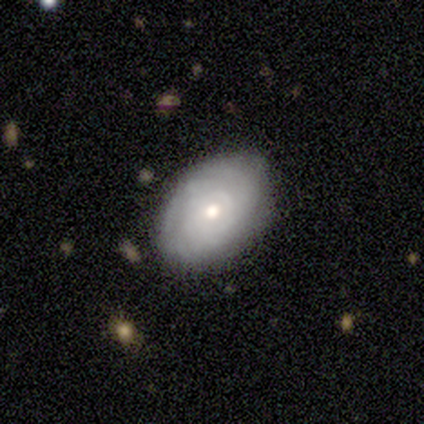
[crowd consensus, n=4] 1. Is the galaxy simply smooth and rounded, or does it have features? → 50% featured or disk, 25% smooth, 25% star or artifact.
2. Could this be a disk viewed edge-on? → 100% no, 0% yes.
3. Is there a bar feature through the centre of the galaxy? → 100% no, 0% strong, 0% weak.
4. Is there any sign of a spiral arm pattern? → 100% yes, 0% no.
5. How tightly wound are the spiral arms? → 50% tight (tied), 50% medium (tied), 0% loose.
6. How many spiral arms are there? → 100% can't tell, 0% 1, 0% 2, 0% 3, 0% 4, 0% more than 4.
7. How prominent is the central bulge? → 100% moderate, 0% dominant, 0% large, 0% small, 0% none.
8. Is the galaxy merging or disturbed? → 100% none, 0% minor disturbance, 0% major disturbance, 0% merger.